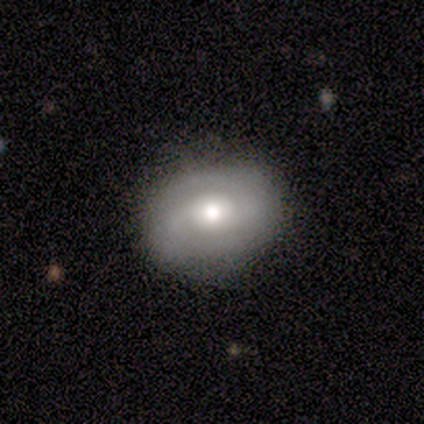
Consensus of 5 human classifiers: Smooth or featured? 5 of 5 (100%) said featured or disk. Edge-on disk? 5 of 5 (100%) said no. Bar? 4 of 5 (80%) said no. Spiral arms? 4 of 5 (80%) said yes. Spiral winding? 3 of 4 (75%) said medium. Spiral arm count? 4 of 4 (100%) said 2. Bulge size? 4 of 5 (80%) said moderate. Merging? 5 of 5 (100%) said none.